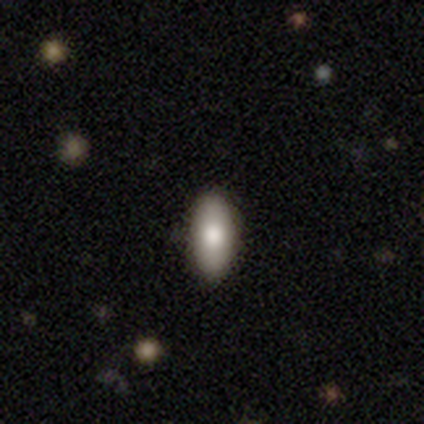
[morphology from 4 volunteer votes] This is possibly a smooth galaxy (50%, tied with featured or disk). How rounded: clearly in between (100%). Merging: possibly none (50%, tied with minor disturbance).